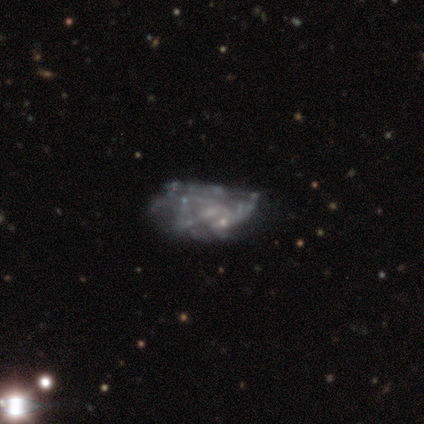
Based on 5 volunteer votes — Smooth or featured? featured or disk (80%)
Edge-on disk? no (100%)
Bar? no (100%)
Spiral arms? no (100%)
Bulge size? none (75%)
Merging? major disturbance (80%)